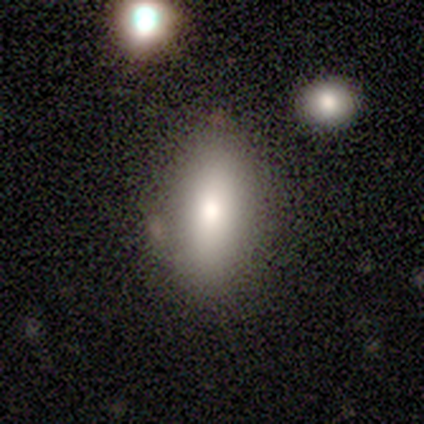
Smooth or featured: smooth — 80% (featured or disk — 20%)
How rounded: in between — 50% (tied with cigar-shaped — 50%)
Merging: none — 60% (minor disturbance — 20%)